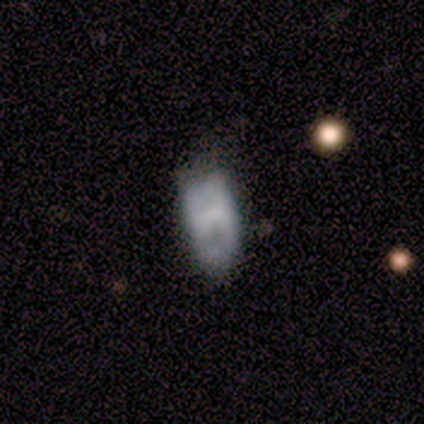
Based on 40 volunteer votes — This appears to be a smooth galaxy with no disk features (45%, tied with featured or disk) that is in between round and cigar-shaped (89%). Merging: none (33%).